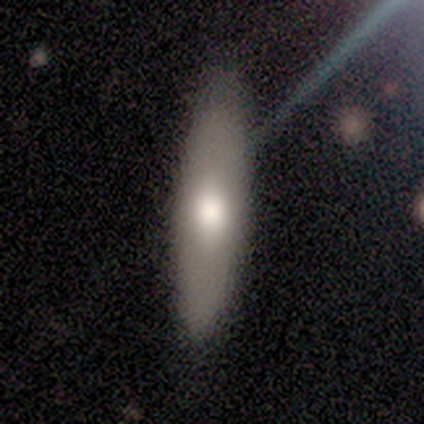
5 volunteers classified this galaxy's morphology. Q: Smooth or featured?
A: smooth (80%); runner-up: featured or disk (20%)
Q: How rounded?
A: in between (50%); tied with: cigar-shaped (50%)
Q: Merging?
A: none (80%); runner-up: minor disturbance (20%)